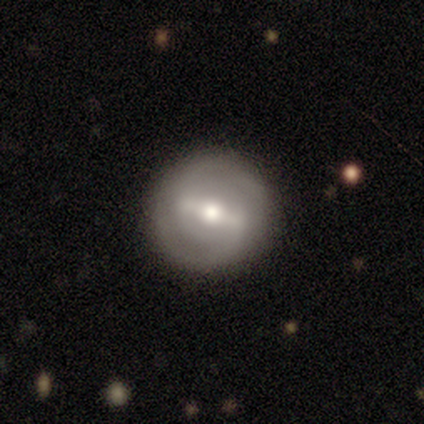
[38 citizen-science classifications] This is likely a featured or disk galaxy (76%). It is clearly not viewed edge-on (97%). Bar: likely strong (75%). Spiral arm pattern: clearly yes (82%). Spiral arm count: clearly 2 (87%). Spiral winding: possibly medium (52%). Central bulge: likely moderate (71%). Merging: clearly none (97%).